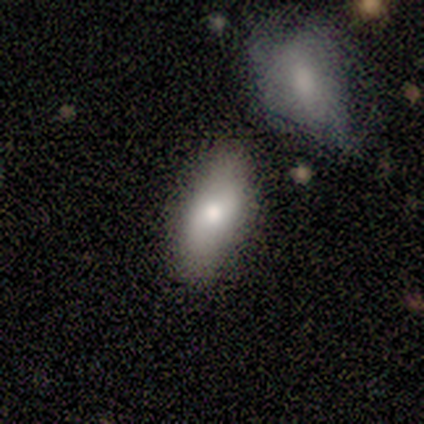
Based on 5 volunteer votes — smooth_or_featured: smooth (p=0.80) [alt: featured or disk p=0.20]
how_rounded: in between (p=1.00)
merging: none (p=0.80) [alt: minor disturbance p=0.20]